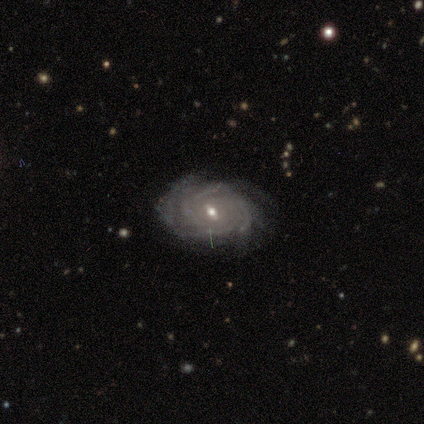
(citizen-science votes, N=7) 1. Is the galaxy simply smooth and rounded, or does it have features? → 86% featured or disk, 14% smooth, 0% star or artifact.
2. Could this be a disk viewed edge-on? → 100% no, 0% yes.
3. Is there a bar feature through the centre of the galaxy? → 100% weak, 0% strong, 0% no.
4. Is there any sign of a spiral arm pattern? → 100% yes, 0% no.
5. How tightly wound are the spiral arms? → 83% tight, 17% medium, 0% loose.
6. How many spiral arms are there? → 50% 4 (tied), 50% can't tell (tied), 0% 1, 0% 2, 0% 3, 0% more than 4.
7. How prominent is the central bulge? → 67% moderate, 33% small, 0% dominant, 0% large, 0% none.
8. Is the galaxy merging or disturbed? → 71% none, 29% minor disturbance, 0% major disturbance, 0% merger.